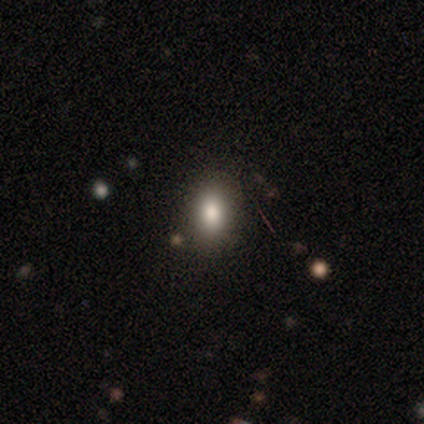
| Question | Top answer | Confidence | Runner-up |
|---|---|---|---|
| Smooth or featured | smooth | 75% | star or artifact (18%) |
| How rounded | in between | 67% | round (27%) |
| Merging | none | 88% | minor disturbance (12%) |